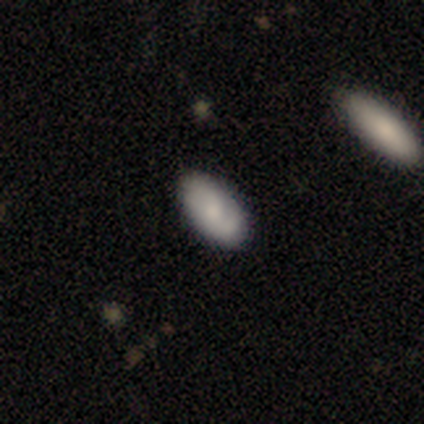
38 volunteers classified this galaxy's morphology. Smooth or featured: smooth — 71% (featured or disk — 16%)
How rounded: in between — 93% (round — 7%)
Merging: none — 79% (minor disturbance — 15%)